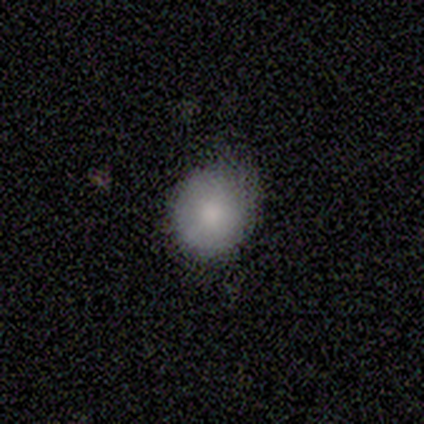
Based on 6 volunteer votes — A smooth galaxy with no disk features (100%) that is round (67%).

Vote fractions:
- Smooth or featured? smooth: 100% / featured or disk: 0% / star or artifact: 0%
- How rounded? round: 67% / in between: 33% / cigar-shaped: 0%
- Merging? none: 67% / minor disturbance: 33% / major disturbance: 0% / merger: 0%